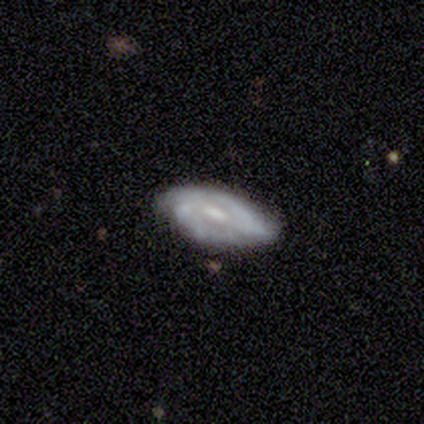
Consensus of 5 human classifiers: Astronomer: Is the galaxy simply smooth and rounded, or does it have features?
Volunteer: featured or disk — 60% (runner-up: smooth, 40%).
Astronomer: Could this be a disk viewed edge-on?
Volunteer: no — 100%.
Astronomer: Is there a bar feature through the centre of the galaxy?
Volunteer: weak — 100%.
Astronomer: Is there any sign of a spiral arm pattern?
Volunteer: yes — 100%.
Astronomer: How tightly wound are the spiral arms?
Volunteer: tight — 33%, tied with medium and loose at 33%.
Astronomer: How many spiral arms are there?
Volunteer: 2 — 67%.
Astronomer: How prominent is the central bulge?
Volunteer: large — 33%, tied with small and none at 33%.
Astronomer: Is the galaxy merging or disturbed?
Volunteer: none — 80%.